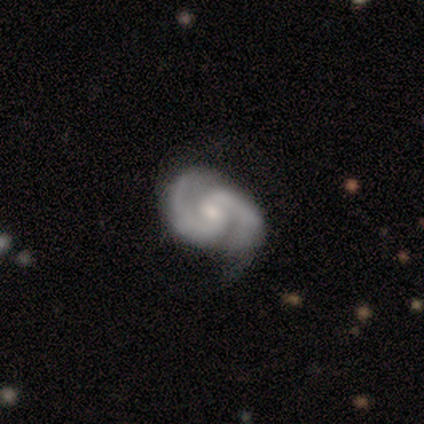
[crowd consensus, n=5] Smooth or featured? 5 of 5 (100%) said featured or disk. Edge-on disk? 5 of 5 (100%) said no. Bar? 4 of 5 (80%) said no. Spiral arms? 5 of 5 (100%) said yes. Spiral winding? 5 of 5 (100%) said medium. Spiral arm count? 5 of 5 (100%) said 2. Bulge size? 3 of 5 (60%) said moderate. Merging? 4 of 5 (80%) said none.